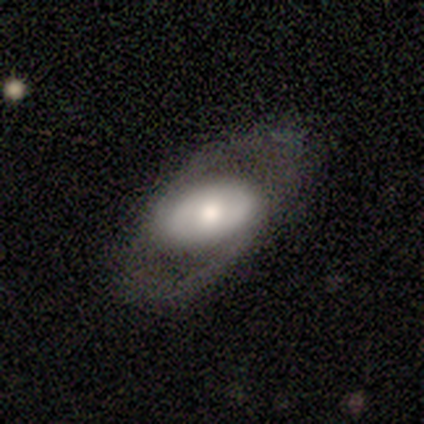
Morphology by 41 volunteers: Overall: featured or disk (59%; smooth 39%). Edge-on disk: no (96%). Bar: no (65%). Spiral arms: yes (57%; no 43%). Spiral arm count: 2 (77%). Spiral winding: loose (54%; medium 31%). Bulge size: moderate (52%; large 35%). Merging: none (70%).